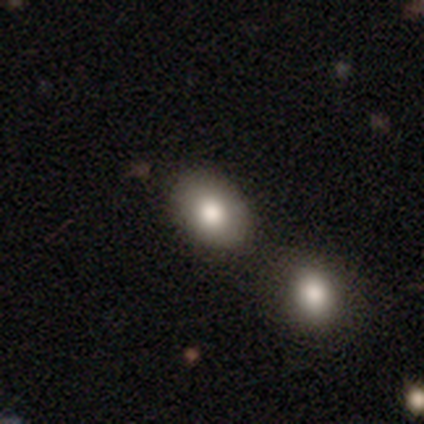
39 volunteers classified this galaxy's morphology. Smooth or featured?
  - smooth: 85% *
  - featured or disk: 8%
  - star or artifact: 8%
How rounded?
  - in between: 67% *
  - round: 33%
  - cigar-shaped: 0%
Merging?
  - none: 67% *
  - minor disturbance: 19%
  - merger: 11%
  - major disturbance: 3%